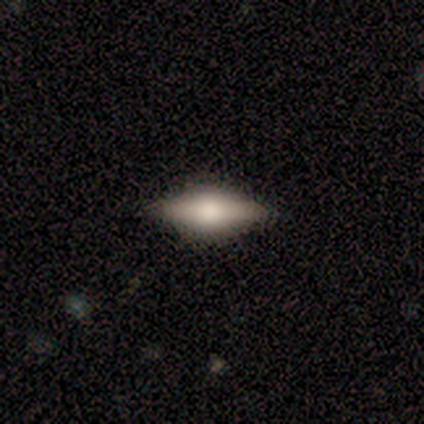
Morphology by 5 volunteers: Smooth or featured? 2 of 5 (40%, tied with featured or disk) said smooth. How rounded? 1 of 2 (50%, tied with cigar-shaped) said in between. Merging? 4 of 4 (100%) said none.